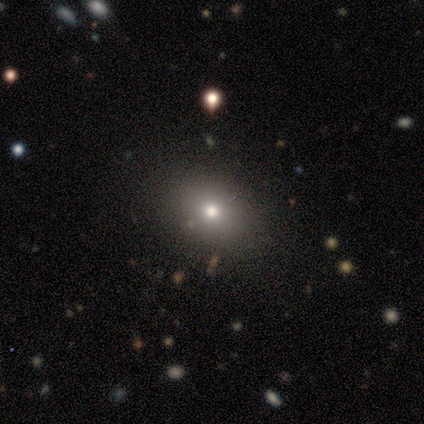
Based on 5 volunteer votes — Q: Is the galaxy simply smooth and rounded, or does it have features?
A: smooth — 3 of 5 (60%).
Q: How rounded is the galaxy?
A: in between — 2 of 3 (67%).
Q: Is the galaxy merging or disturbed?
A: none — 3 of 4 (75%).